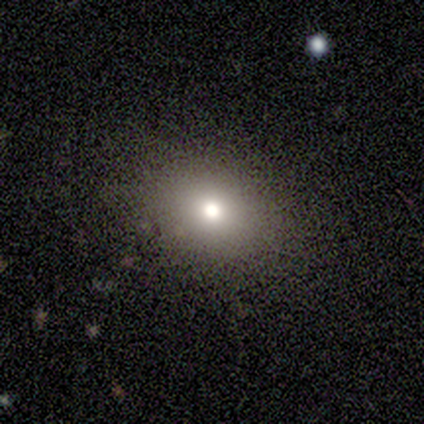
Overall: smooth (100%). How rounded: round (60%; in between 40%). Merging: none (80%).